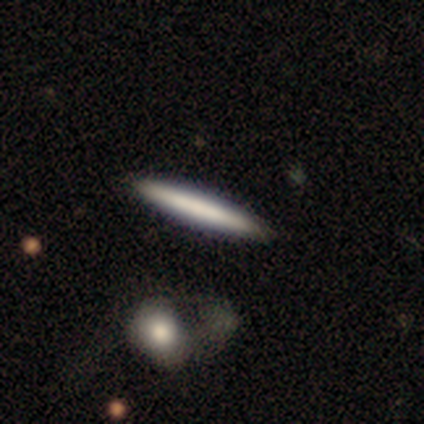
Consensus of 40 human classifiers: smooth 55%, featured or disk 40%, star or artifact 5%. Down the decision tree: how rounded — cigar-shaped (100%); merging — none (58%).